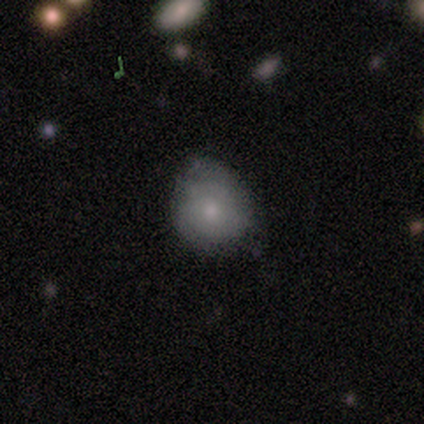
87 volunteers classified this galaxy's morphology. A smooth galaxy with no disk features (67%) that is round (83%).

Vote fractions:
- Smooth or featured? smooth: 67% / featured or disk: 24% / star or artifact: 9%
- How rounded? round: 83% / in between: 17% / cigar-shaped: 0%
- Merging? none: 63% / minor disturbance: 29% / major disturbance: 6% / merger: 1%